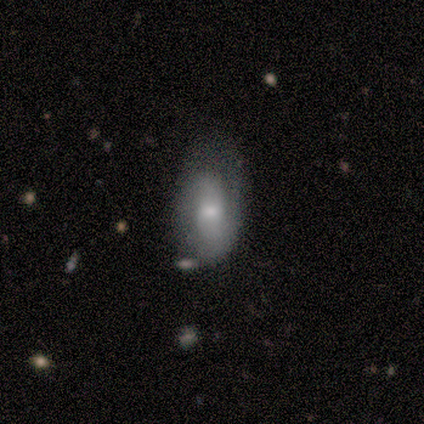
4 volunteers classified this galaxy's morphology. Smooth or featured? 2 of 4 (50%, tied with featured or disk) said smooth. How rounded? 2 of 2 (100%) said in between. Merging? 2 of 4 (50%) said none.